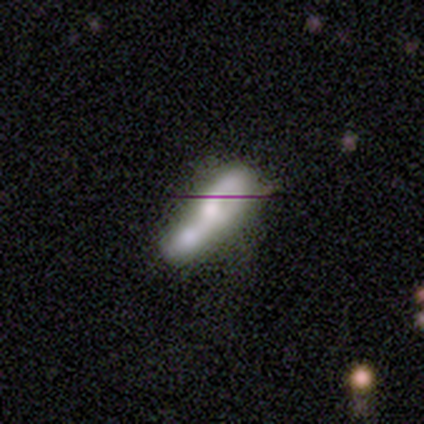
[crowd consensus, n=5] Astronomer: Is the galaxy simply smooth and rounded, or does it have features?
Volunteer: smooth — 40%, tied with featured or disk at 40%.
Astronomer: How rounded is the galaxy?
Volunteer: in between — 100%.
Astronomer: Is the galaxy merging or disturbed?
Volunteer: merger — 50%.